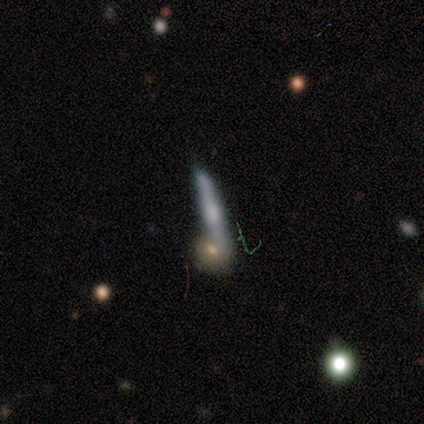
featured or disk 80%, smooth 20%, star or artifact 0%. Down the decision tree: edge-on disk — yes (75%); edge-on bulge — none (67%); merging — none (40%, tied with merger).